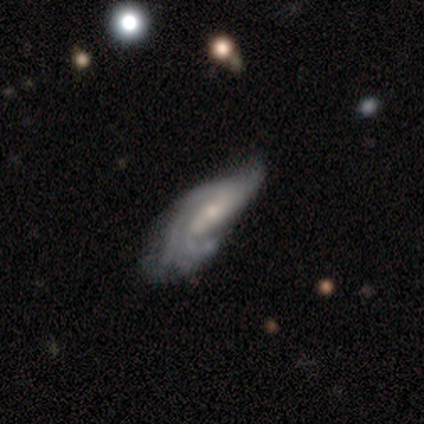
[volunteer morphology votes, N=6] Volunteers were most divided on "spiral winding" (3-way tie): tight: 33%, medium: 33%, loose: 33%; "merging" (2-way tie): minor disturbance: 40%, major disturbance: 40%, none: 20%, merger: 0%. More confident: spiral arms — yes (100%); bulge size — small (100%); edge-on disk — no (75%); bar — weak (67%); spiral arm count — can't tell (67%); smooth or featured — featured or disk (67%).